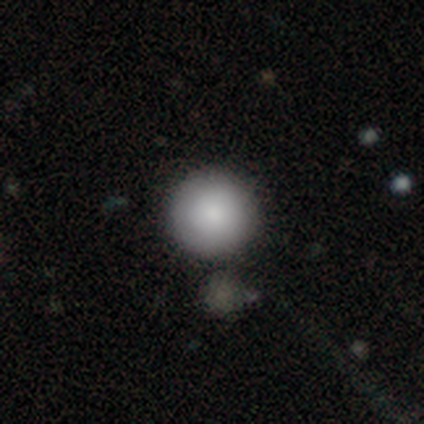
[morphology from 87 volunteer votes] Volunteers were most divided on "smooth or featured": smooth: 80%, featured or disk: 10%, star or artifact: 9%. More confident: how rounded — round (99%); merging — none (85%).